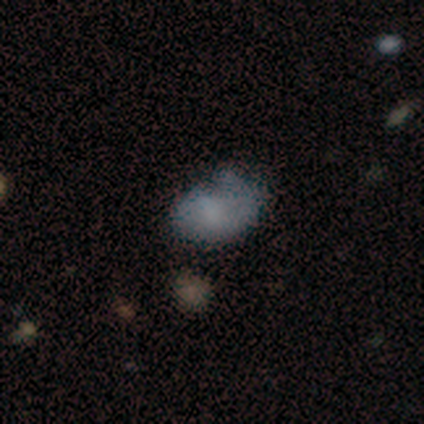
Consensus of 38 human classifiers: This appears to be a smooth galaxy with no disk features (71%) that is in between round and cigar-shaped (89%). Merging: minor disturbance (41%).